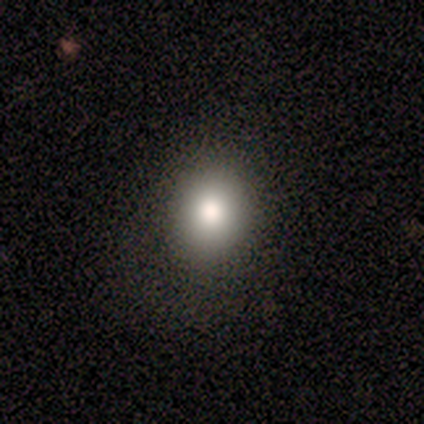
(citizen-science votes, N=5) This is clearly a smooth galaxy (100%). How rounded: likely in between (60%). Merging: clearly none (80%).